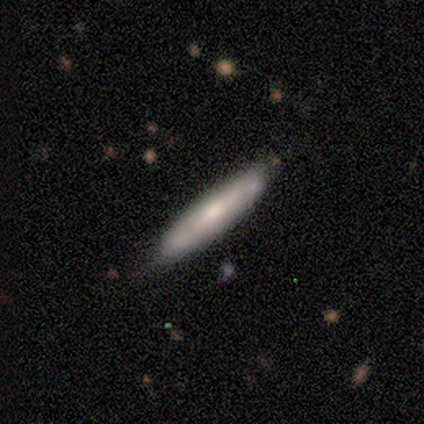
This is likely a smooth galaxy (60%). How rounded: clearly cigar-shaped (100%). Merging: clearly none (100%).